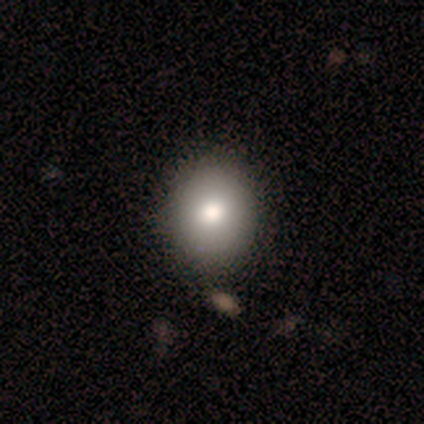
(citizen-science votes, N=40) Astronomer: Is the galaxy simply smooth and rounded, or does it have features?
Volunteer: smooth — 82%.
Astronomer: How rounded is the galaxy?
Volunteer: round — 79%.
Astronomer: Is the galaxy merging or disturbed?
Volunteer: none — 68%.